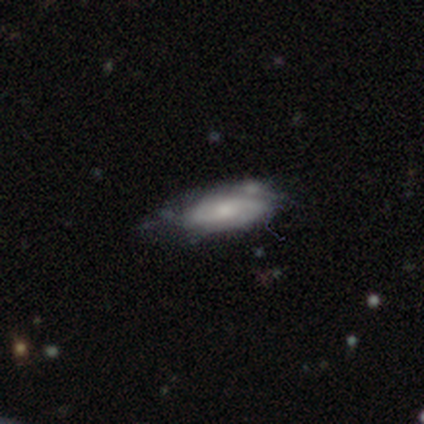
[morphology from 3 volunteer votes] smooth-or-featured: smooth: 67% | featured or disk: 33% | star or artifact: 0%
  how-rounded: in between: 100% | round: 0% | cigar-shaped: 0%
  merging: none: 33% (tied) | minor disturbance: 33% (tied) | merger: 33% (tied) | major disturbance: 0%